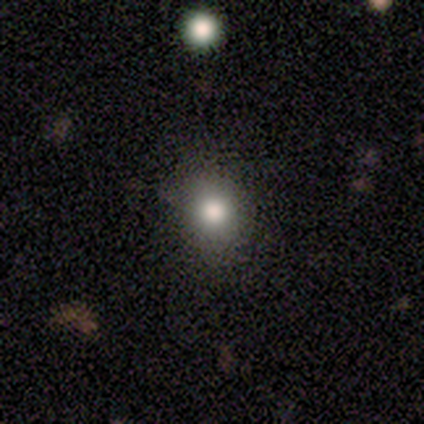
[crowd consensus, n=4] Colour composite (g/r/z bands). It shows a smooth galaxy with no disk features (100%) that is round (50%, tied with in between). Merging: none (100%).